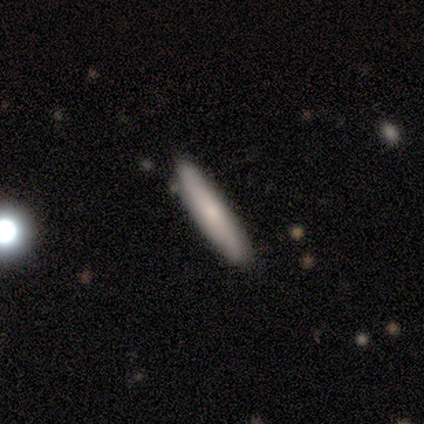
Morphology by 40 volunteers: Smooth or featured: smooth — 80% (featured or disk — 20%)
How rounded: cigar-shaped — 100%
Merging: none — 65% (merger — 2%)